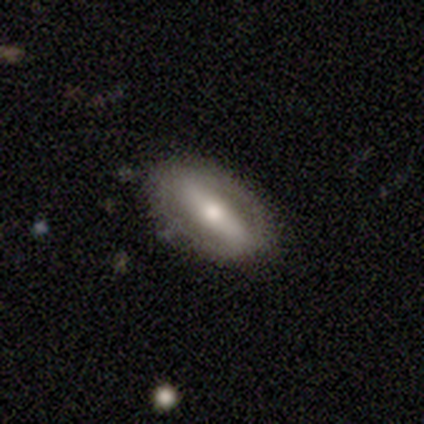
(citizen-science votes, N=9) Smooth or featured? 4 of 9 (44%) said featured or disk. Edge-on disk? 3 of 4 (75%) said no. Bar? 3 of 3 (100%) said strong. Spiral arms? 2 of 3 (67%) said no. Bulge size? 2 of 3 (67%) said small. Merging? 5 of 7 (71%) said none.